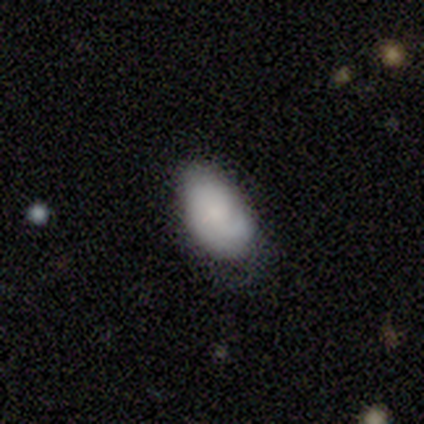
This appears to be a smooth galaxy with no disk features (100%) that is in between round and cigar-shaped (80%). Merging: none (60%).